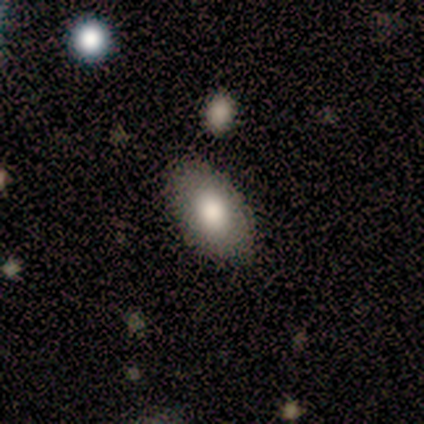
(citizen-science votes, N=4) A smooth galaxy with no disk features (100%) that is in between round and cigar-shaped (100%).

Vote fractions:
- Smooth or featured? smooth: 100% / featured or disk: 0% / star or artifact: 0%
- How rounded? in between: 100% / round: 0% / cigar-shaped: 0%
- Merging? none: 75% / minor disturbance: 25% / major disturbance: 0% / merger: 0%